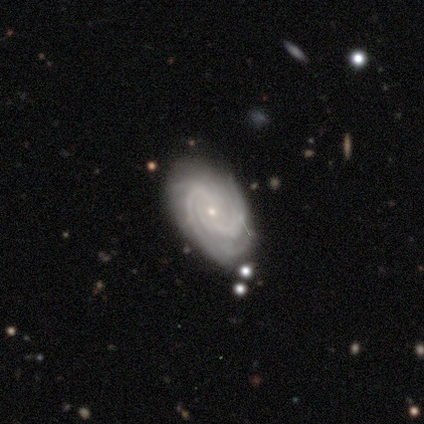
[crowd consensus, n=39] Volunteers were most divided on "spiral arm count": can't tell: 37%, 3: 20%, 2: 17%, 4: 14%, more than 4: 11%, 1: 0%. More confident: edge-on disk — no (100%); spiral arms — yes (97%); smooth or featured — featured or disk (92%); bulge size — small (83%); spiral winding — tight (71%); bar — no (69%); merging — none (67%).